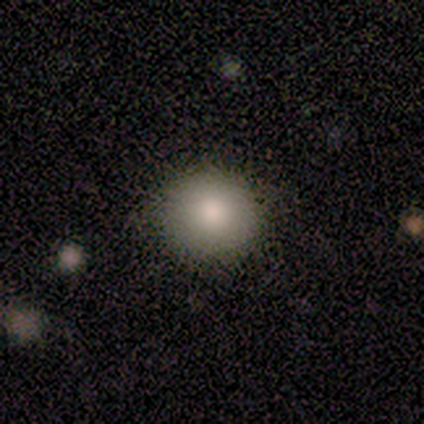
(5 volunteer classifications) smooth 80%, featured or disk 20%, star or artifact 0%. Down the decision tree: how rounded — round (100%); merging — none (100%).